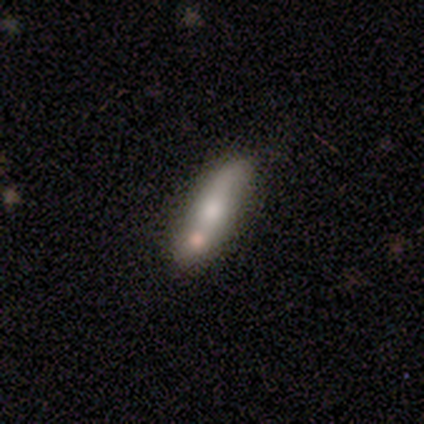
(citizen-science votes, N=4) Morphology: type=smooth (50%, tied with featured or disk); roundness=in between (50%, tied with cigar-shaped); merging=none (75%).